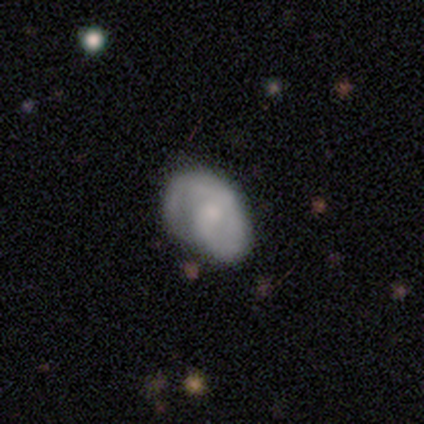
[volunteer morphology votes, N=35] smooth-or-featured: featured or disk: 63% | smooth: 29% | star or artifact: 9%
  disk-edge-on: no: 100% | yes: 0%
    bar: no: 50% | weak: 41% | strong: 9%
    has-spiral-arms: yes: 95% | no: 5%
      spiral-winding: tight: 52% | medium: 38% | loose: 10%
      spiral-arm-count: 1: 52% | 2: 43% | can't tell: 5% | 3: 0% | 4: 0% | more than 4: 0%
    bulge-size: moderate: 55% | small: 32% | none: 14% | dominant: 0% | large: 0%
  merging: none: 53% | major disturbance: 25% | minor disturbance: 19% | merger: 3%